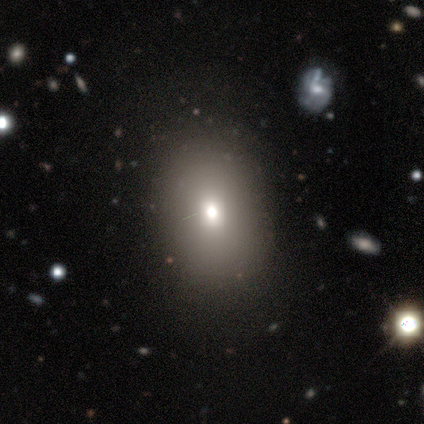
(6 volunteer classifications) Overall: smooth (67%). How rounded: in between (75%). Merging: none (100%).